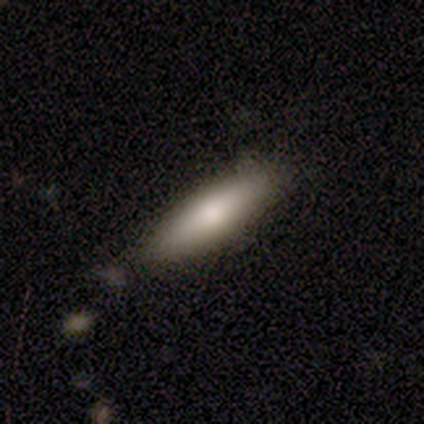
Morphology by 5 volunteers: Volunteers were most divided on "smooth or featured": smooth: 60%, featured or disk: 40%, star or artifact: 0%. More confident: how rounded — cigar-shaped (100%); merging — none (80%).